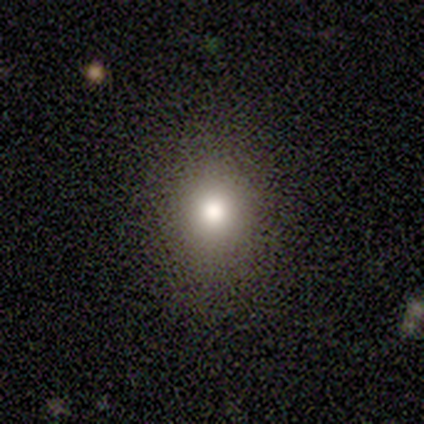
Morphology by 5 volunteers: Smooth or featured? 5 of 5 (100%) said smooth. How rounded? 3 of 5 (60%) said round. Merging? 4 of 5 (80%) said none.